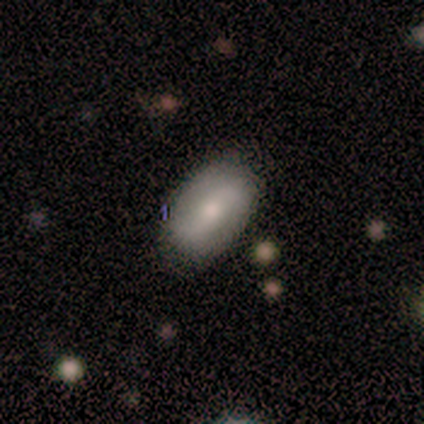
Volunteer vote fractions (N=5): A smooth galaxy with no disk features (60%) that is in between round and cigar-shaped (100%). Merging: none (75%).